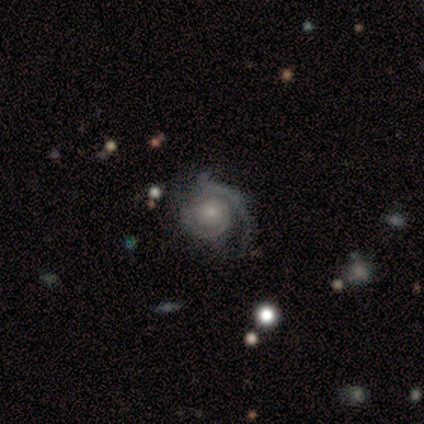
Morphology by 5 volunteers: smooth-or-featured: featured or disk: 100% | smooth: 0% | star or artifact: 0%
  disk-edge-on: no: 100% | yes: 0%
    bar: no: 100% | strong: 0% | weak: 0%
    has-spiral-arms: yes: 100% | no: 0%
      spiral-winding: tight: 80% | medium: 20% | loose: 0%
      spiral-arm-count: 2: 100% | 1: 0% | 3: 0% | 4: 0% | more than 4: 0% | can't tell: 0%
    bulge-size: small: 60% | moderate: 20% | none: 20% | dominant: 0% | large: 0%
  merging: none: 60% | major disturbance: 20% | merger: 20% | minor disturbance: 0%